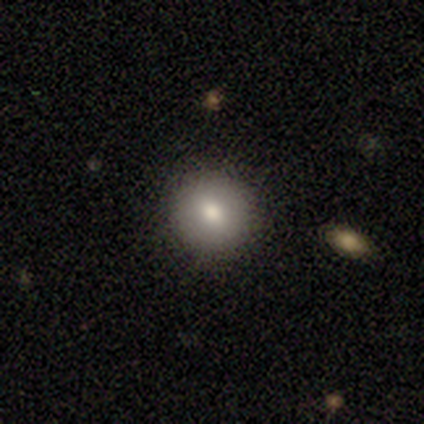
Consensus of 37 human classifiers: This appears to be a smooth galaxy with no disk features (81%) that is round (80%). Merging: none (88%).